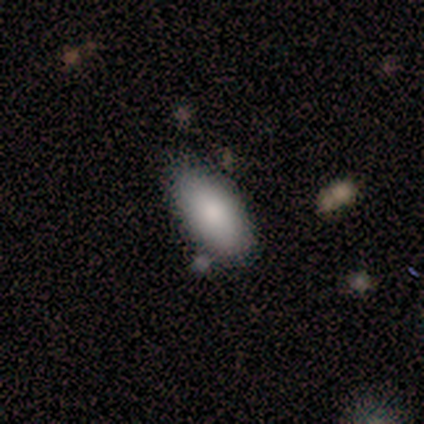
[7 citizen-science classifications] Volunteers were most divided on "how rounded": in between: 83%, cigar-shaped: 17%, round: 0%. More confident: smooth or featured — smooth (86%); merging — none (86%).